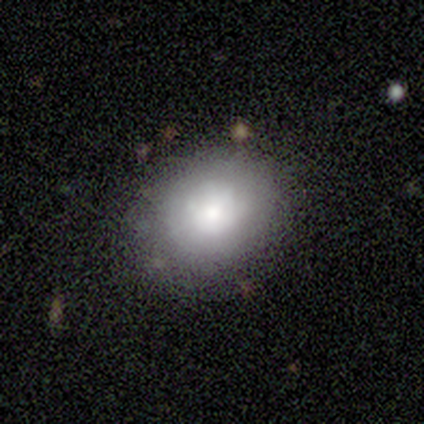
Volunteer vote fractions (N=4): Q: Smooth or featured?
A: smooth (75%); runner-up: featured or disk (25%)
Q: How rounded?
A: round (67%); runner-up: in between (33%)
Q: Merging?
A: none (75%); runner-up: minor disturbance (25%)